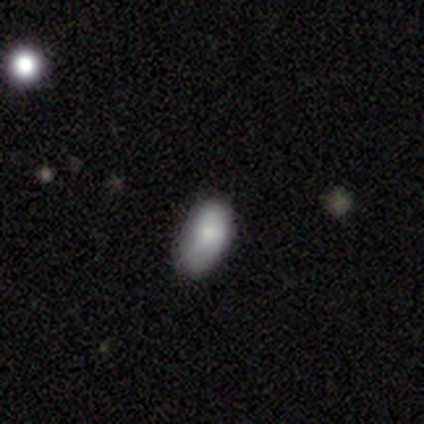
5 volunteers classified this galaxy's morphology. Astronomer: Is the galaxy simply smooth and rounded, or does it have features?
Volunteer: smooth — 80%.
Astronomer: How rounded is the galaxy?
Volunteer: in between — 100%.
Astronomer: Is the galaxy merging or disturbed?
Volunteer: none — 50%, tied with minor disturbance at 50%.